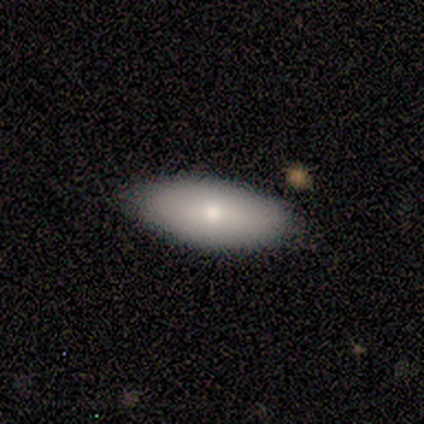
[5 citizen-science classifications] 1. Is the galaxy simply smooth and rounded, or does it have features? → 80% smooth, 20% featured or disk, 0% star or artifact.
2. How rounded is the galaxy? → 100% in between, 0% round, 0% cigar-shaped.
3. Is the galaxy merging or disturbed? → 80% none, 20% minor disturbance, 0% major disturbance, 0% merger.